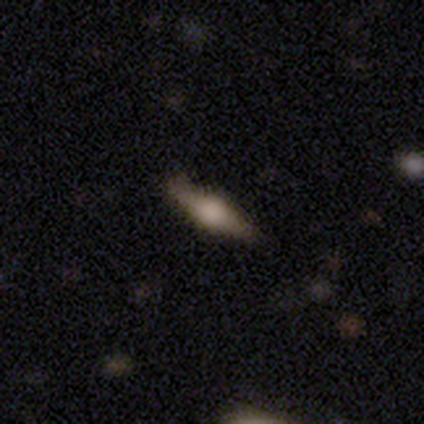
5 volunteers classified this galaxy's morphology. Overall: featured or disk (80%). Edge-on disk: yes (100%). Edge-on bulge: rounded (75%). Merging: none (80%).